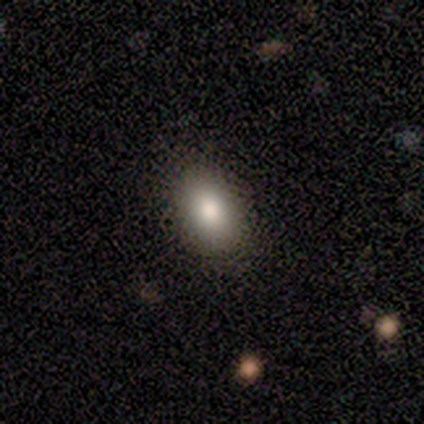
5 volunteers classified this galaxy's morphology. This is clearly a smooth galaxy (80%). How rounded: clearly in between (100%). Merging: likely minor disturbance (60%).